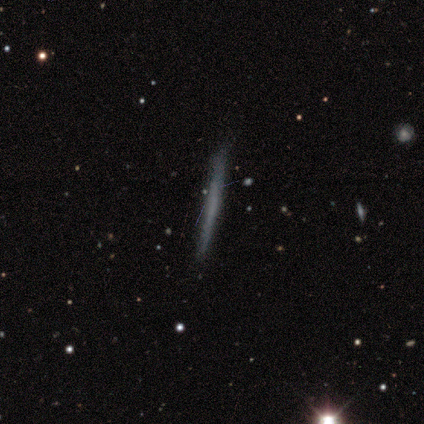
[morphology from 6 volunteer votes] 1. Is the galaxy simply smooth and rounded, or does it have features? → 83% smooth, 17% featured or disk, 0% star or artifact.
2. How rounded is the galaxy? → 80% cigar-shaped, 20% in between, 0% round.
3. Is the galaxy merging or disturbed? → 83% none, 17% major disturbance, 0% minor disturbance, 0% merger.